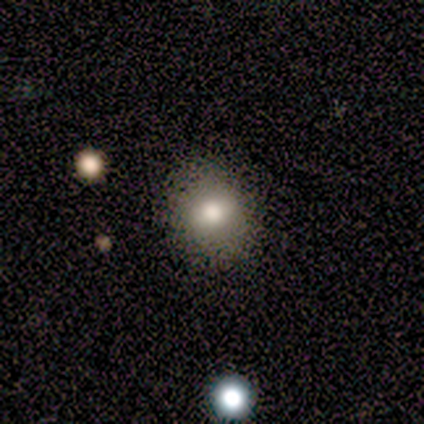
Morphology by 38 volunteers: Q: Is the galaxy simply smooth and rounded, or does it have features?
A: smooth — 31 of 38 (82%).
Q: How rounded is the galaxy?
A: round — 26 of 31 (84%).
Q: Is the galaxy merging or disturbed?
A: none — 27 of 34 (79%).